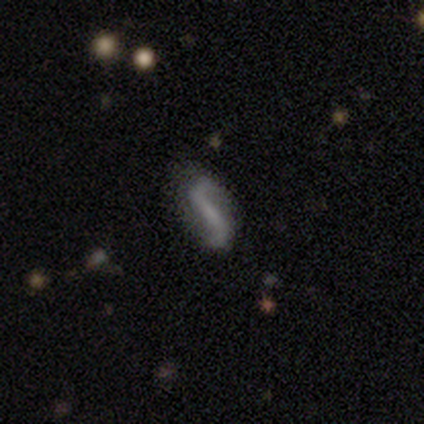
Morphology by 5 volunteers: smooth_or_featured: featured or disk (p=1.00)
disk_edge_on: no (p=1.00)
bar: strong (p=0.60) [alt: weak p=0.20]
has_spiral_arms: yes (p=1.00)
spiral_winding: loose (p=1.00)
spiral_arm_count: 2 (p=1.00)
bulge_size: none (p=0.60) [alt: small p=0.40]
merging: none (p=0.40) [tied with: major disturbance p=0.40]